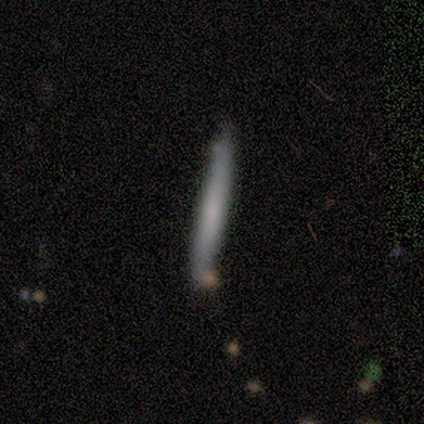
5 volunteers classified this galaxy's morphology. A featured or disk galaxy (80%) viewed edge-on (100%) with no central bulge (50%). Merging: none (60%).